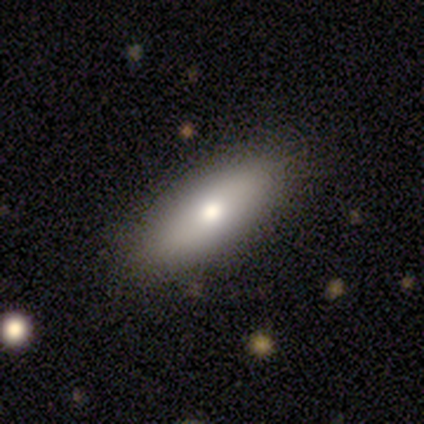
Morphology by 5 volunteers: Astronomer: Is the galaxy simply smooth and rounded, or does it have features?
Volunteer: smooth — 100%.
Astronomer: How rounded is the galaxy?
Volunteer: in between — 80%.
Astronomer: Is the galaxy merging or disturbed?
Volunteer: none — 80%.